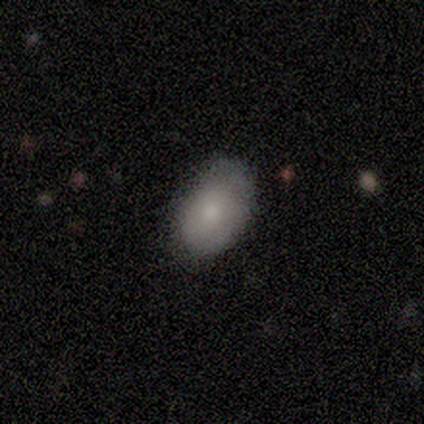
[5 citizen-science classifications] smooth-or-featured: smooth: 80% | featured or disk: 20% | star or artifact: 0%
  how-rounded: in between: 100% | round: 0% | cigar-shaped: 0%
  merging: minor disturbance: 60% | none: 40% | major disturbance: 0% | merger: 0%